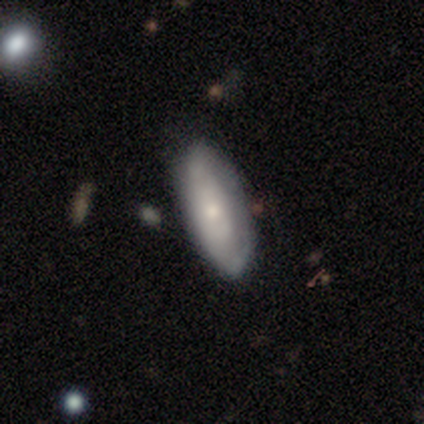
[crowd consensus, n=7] Q: Smooth or featured?
A: smooth (57%); runner-up: featured or disk (43%)
Q: How rounded?
A: in between (50%); tied with: cigar-shaped (50%)
Q: Merging?
A: none (71%); runner-up: minor disturbance (29%)